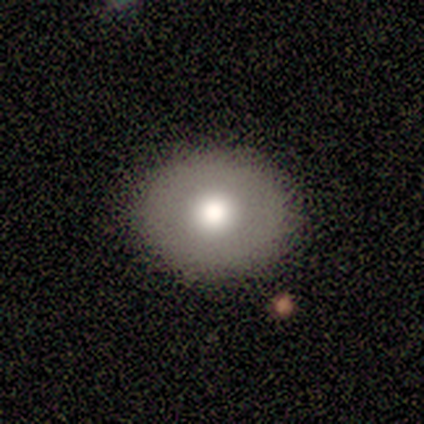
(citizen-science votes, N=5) Morphology: type=smooth (60%); roundness=round (67%); merging=none (40%, tied with minor disturbance).